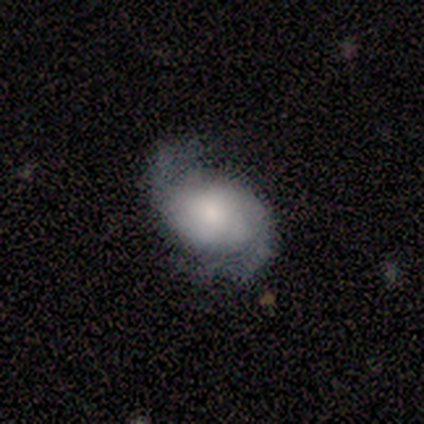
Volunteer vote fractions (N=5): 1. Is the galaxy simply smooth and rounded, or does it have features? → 60% featured or disk, 40% smooth, 0% star or artifact.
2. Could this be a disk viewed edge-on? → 67% no, 33% yes.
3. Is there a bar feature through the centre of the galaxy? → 100% no, 0% strong, 0% weak.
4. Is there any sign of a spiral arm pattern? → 100% yes, 0% no.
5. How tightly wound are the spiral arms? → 50% tight (tied), 50% medium (tied), 0% loose.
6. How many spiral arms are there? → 100% 2, 0% 1, 0% 3, 0% 4, 0% more than 4, 0% can't tell.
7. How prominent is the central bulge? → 100% dominant, 0% large, 0% moderate, 0% small, 0% none.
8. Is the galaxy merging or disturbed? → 60% none, 40% major disturbance, 0% minor disturbance, 0% merger.